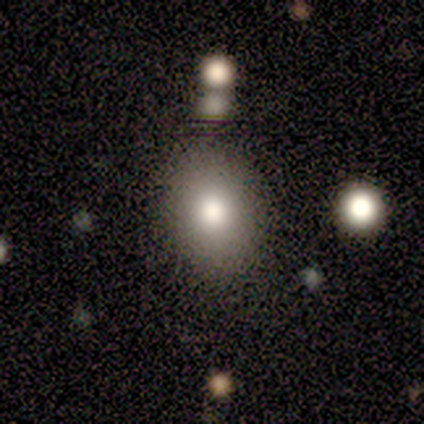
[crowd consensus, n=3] Smooth or featured? smooth (100%)
How rounded? in between (67%)
Merging? none (100%)